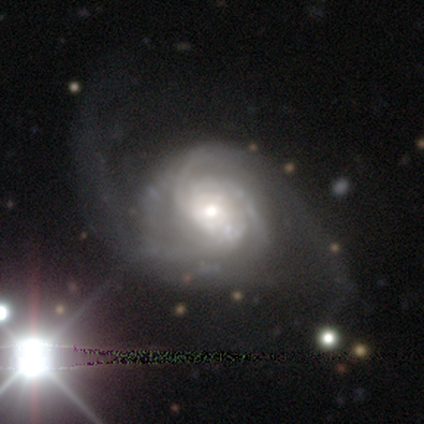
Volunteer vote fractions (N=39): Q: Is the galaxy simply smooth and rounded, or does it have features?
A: featured or disk — 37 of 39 (95%).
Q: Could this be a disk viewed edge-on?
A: no — 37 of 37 (100%).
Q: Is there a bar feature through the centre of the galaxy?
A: no — 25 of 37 (68%).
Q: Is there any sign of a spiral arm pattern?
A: yes — 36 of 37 (97%).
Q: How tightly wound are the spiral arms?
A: medium — 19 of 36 (53%).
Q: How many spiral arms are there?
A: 2 — 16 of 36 (44%).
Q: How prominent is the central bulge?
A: moderate — 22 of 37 (59%).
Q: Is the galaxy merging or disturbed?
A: none — 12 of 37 (32%).